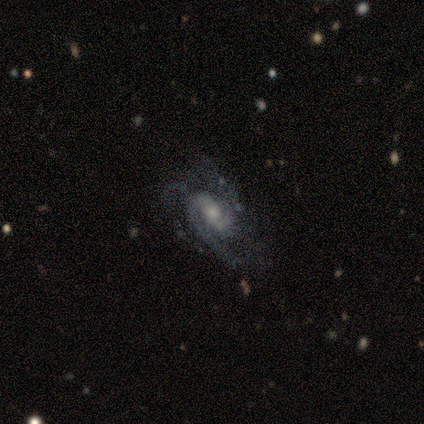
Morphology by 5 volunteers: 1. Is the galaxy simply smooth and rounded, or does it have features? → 100% featured or disk, 0% smooth, 0% star or artifact.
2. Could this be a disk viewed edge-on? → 100% no, 0% yes.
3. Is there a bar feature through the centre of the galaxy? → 80% no, 20% weak, 0% strong.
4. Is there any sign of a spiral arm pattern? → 100% yes, 0% no.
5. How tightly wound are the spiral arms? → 40% tight (tied), 40% medium (tied), 20% loose.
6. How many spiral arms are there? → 40% can't tell, 20% 2, 20% 3, 20% 4, 0% 1, 0% more than 4.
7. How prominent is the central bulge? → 60% moderate, 40% small, 0% dominant, 0% large, 0% none.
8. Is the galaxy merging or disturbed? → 80% none, 20% major disturbance, 0% minor disturbance, 0% merger.